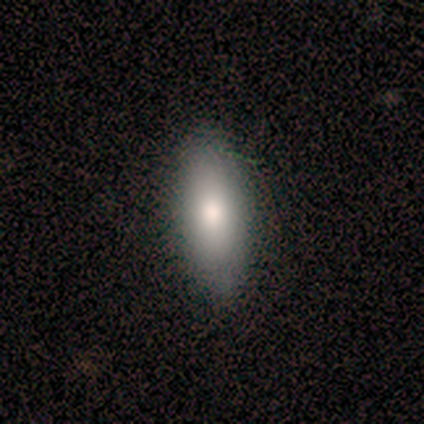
Smooth or featured?
  - smooth: 60% *
  - featured or disk: 40%
  - star or artifact: 0%
How rounded?
  - in between: 67% *
  - cigar-shaped: 33%
  - round: 0%
Merging?
  - none: 100% *
  - minor disturbance: 0%
  - major disturbance: 0%
  - merger: 0%